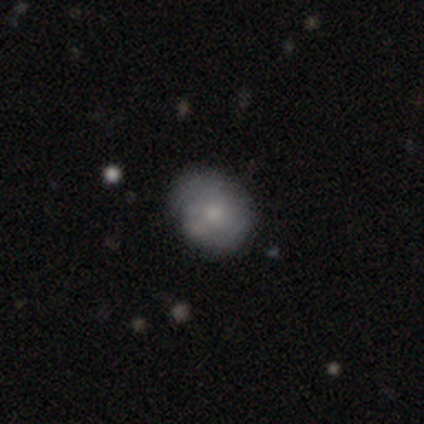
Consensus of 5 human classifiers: smooth_or_featured: featured or disk (p=0.60) [alt: smooth p=0.40]
disk_edge_on: no (p=1.00)
bar: no (p=0.67) [alt: strong p=0.33]
has_spiral_arms: no (p=1.00)
bulge_size: moderate (p=0.67) [alt: dominant p=0.33]
merging: none (p=0.40) [tied with: merger p=0.40]